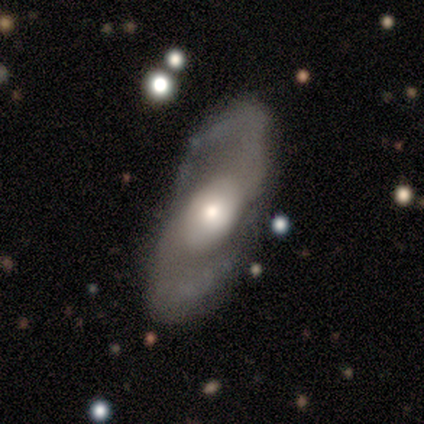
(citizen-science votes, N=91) This appears to be a featured or disk galaxy (86%) with no bar (68%), 2 (97%) medium (50%) spiral arms (93%) and a moderate central bulge (52%). Merging: none (78%).